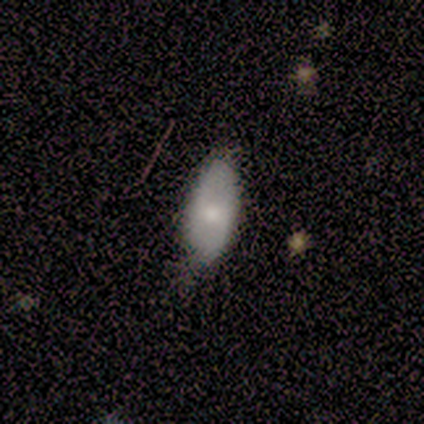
Smooth or featured: smooth — 80% (featured or disk — 20%)
How rounded: in between — 100%
Merging: minor disturbance — 60% (none — 20%)